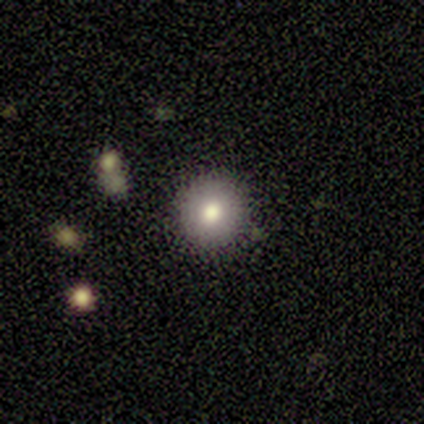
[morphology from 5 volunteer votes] Smooth or featured?
  - smooth: 60% *
  - featured or disk: 40%
  - star or artifact: 0%
How rounded?
  - round: 100% *
  - in between: 0%
  - cigar-shaped: 0%
Merging?
  - none: 80% *
  - minor disturbance: 20%
  - major disturbance: 0%
  - merger: 0%